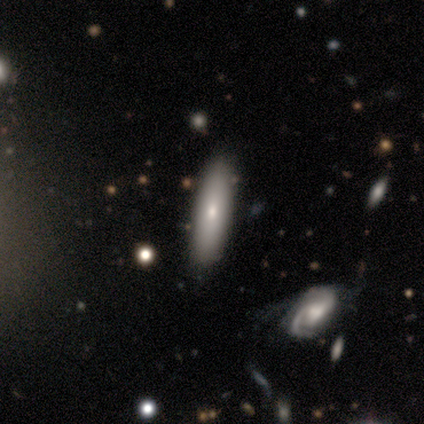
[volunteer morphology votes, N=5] type=smooth (80%); roundness=in between (75%); merging=none (80%).